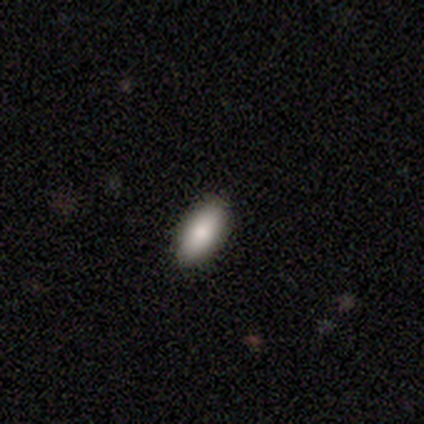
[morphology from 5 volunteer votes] Consensus on every question: smooth or featured — smooth (100%); how rounded — in between (100%); merging — none (100%).